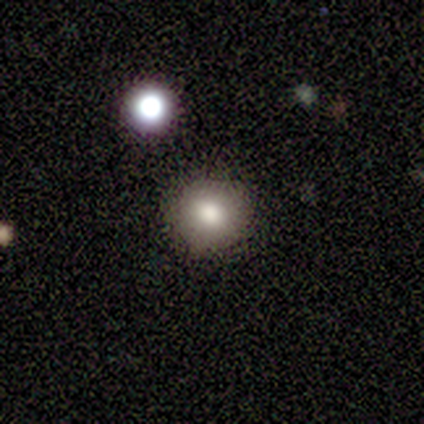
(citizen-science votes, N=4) Morphology: type=smooth (100%); roundness=round (100%); merging=none (75%).